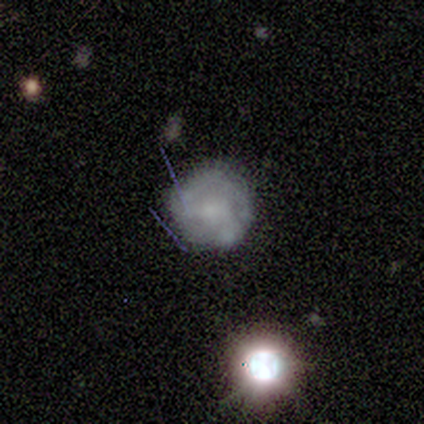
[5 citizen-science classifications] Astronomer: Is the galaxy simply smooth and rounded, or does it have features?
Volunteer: smooth — 60%.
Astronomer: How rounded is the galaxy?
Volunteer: round — 100%.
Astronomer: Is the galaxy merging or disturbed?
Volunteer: none — 50%.